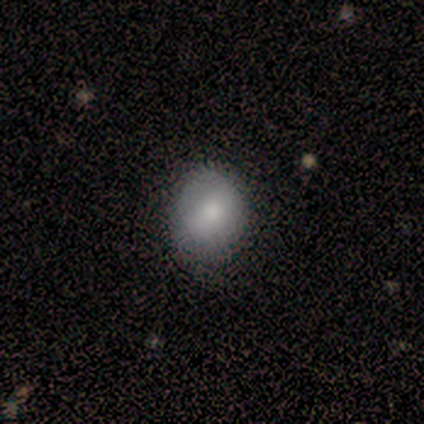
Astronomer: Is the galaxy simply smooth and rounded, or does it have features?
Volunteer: smooth — 100%.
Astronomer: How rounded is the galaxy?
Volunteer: round — 40%, tied with in between at 40%.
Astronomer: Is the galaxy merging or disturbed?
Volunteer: none — 80%.